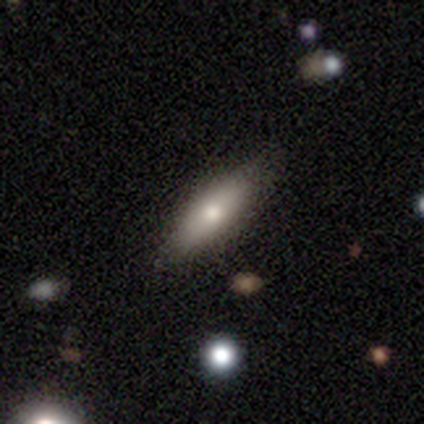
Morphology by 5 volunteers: A smooth galaxy with no disk features (80%) that is in between round and cigar-shaped (50%, tied with cigar-shaped). Merging: none (100%).